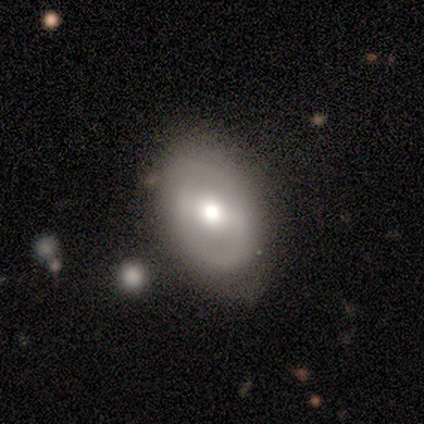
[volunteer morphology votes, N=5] Smooth or featured: featured or disk — 60% (smooth — 40%)
Edge-on disk: no — 100%
Bar: weak — 67% (strong — 33%)
Spiral arms: no — 67% (yes — 33%)
Bulge size: moderate — 67% (large — 33%)
Merging: none — 60% (minor disturbance — 40%)